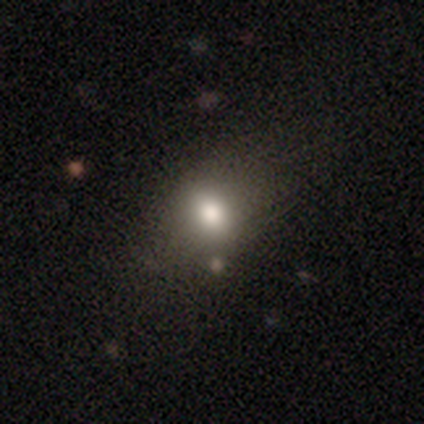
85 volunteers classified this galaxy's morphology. type=smooth (80%); roundness=in between (51%); merging=none (68%).